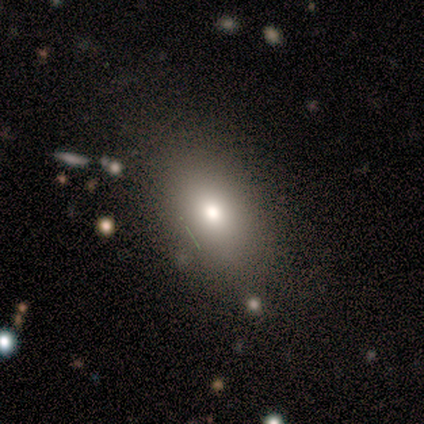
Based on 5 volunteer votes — Smooth or featured? smooth (100%)
How rounded? in between (100%)
Merging? none (100%)